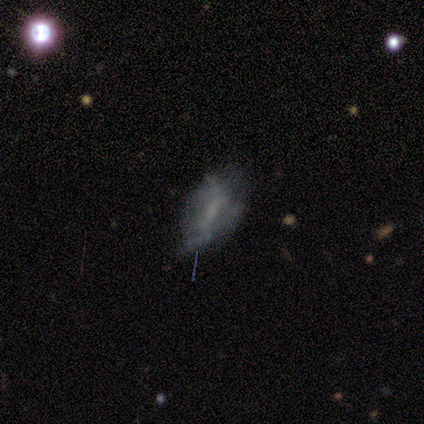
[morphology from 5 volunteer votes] featured or disk 40% (tied), star or artifact 40% (tied), smooth 20%. Down the decision tree: edge-on disk — no (100%); bar — strong (50%, tied with weak); spiral arms — no (100%); bulge size — moderate (50%, tied with small); merging — major disturbance (67%).